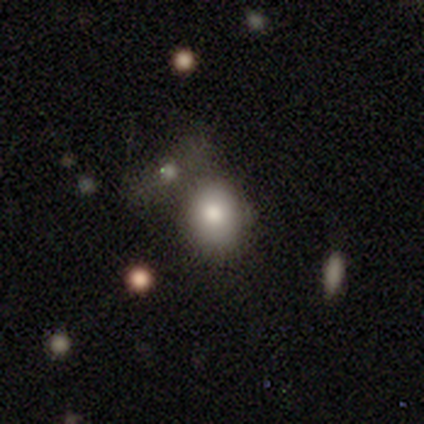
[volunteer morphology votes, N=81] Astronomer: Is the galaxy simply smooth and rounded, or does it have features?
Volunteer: smooth — 83%.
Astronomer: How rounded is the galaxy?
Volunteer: round — 79%.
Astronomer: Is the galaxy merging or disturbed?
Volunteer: none — 55%.